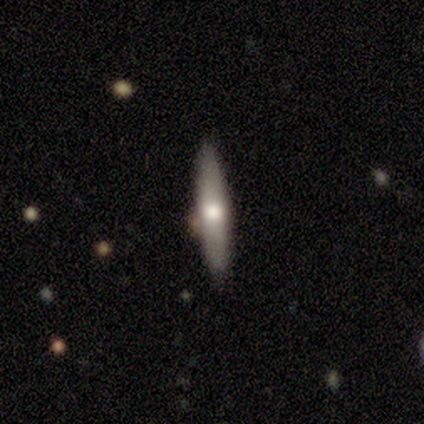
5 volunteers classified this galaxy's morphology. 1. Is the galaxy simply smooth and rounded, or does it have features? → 60% featured or disk, 20% smooth, 20% star or artifact.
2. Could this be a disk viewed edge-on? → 100% yes, 0% no.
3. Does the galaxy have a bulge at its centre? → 100% rounded, 0% boxy, 0% none.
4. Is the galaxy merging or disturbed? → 100% none, 0% minor disturbance, 0% major disturbance, 0% merger.